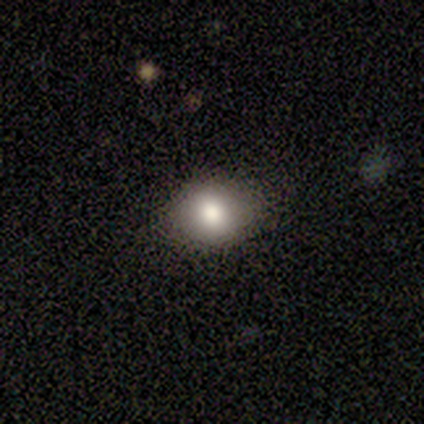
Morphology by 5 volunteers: Smooth or featured? smooth (60%)
How rounded? round (67%)
Merging? none (80%)